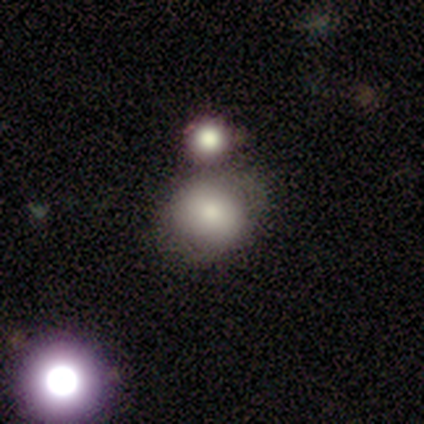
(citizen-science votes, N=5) Volunteers were most divided on "how rounded": round: 60%, in between: 40%, cigar-shaped: 0%. More confident: smooth or featured — smooth (100%); merging — none (100%).